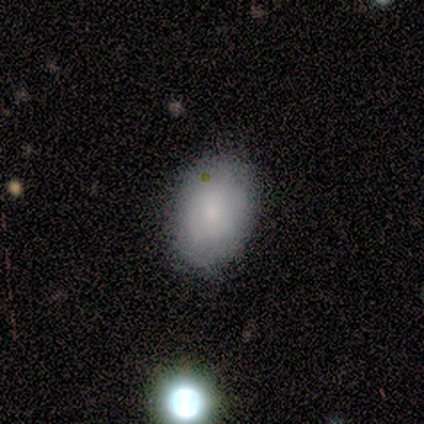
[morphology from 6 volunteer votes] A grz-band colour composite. It shows a smooth galaxy with no disk features (83%) that is in between round and cigar-shaped (100%). Merging: none (83%).